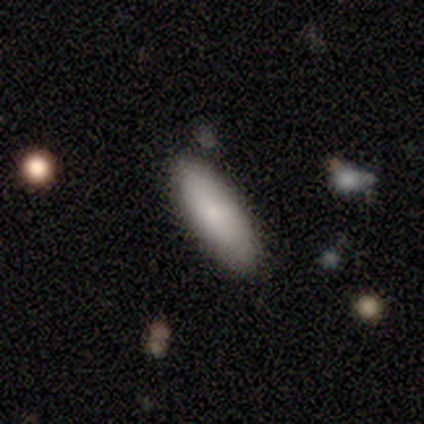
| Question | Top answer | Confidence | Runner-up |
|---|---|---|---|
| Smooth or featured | smooth | 84% | featured or disk (11%) |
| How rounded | in between | 69% | cigar-shaped (31%) |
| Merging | none | 86% | minor disturbance (11%) |